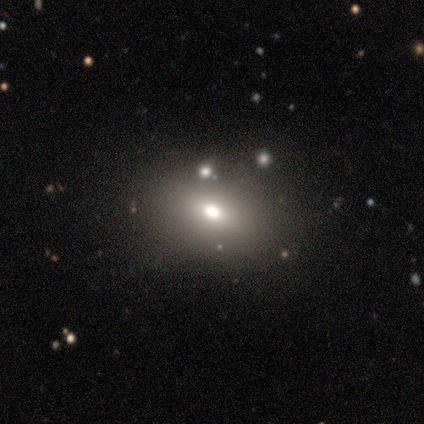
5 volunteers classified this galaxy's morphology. This is clearly a smooth galaxy (80%). How rounded: clearly in between (100%). Merging: clearly none (100%).